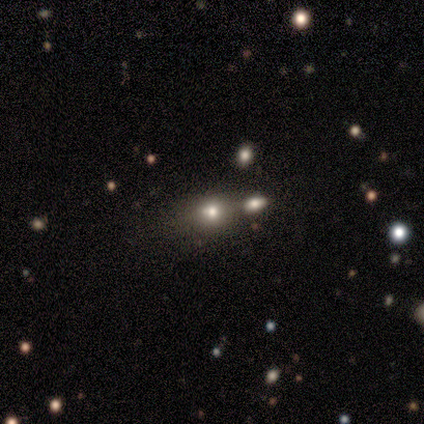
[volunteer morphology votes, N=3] This is likely a smooth galaxy (67%). How rounded: possibly in between (50%, tied with cigar-shaped). Merging: likely none (67%).